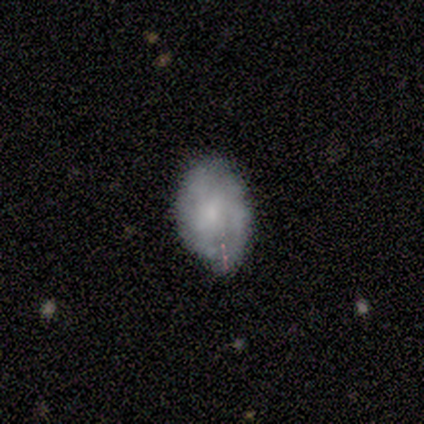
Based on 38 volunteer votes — Smooth or featured?
  - smooth: 66% *
  - featured or disk: 29%
  - star or artifact: 5%
How rounded?
  - in between: 80% *
  - round: 20%
  - cigar-shaped: 0%
Merging?
  - none: 61% *
  - minor disturbance: 31%
  - major disturbance: 8%
  - merger: 0%